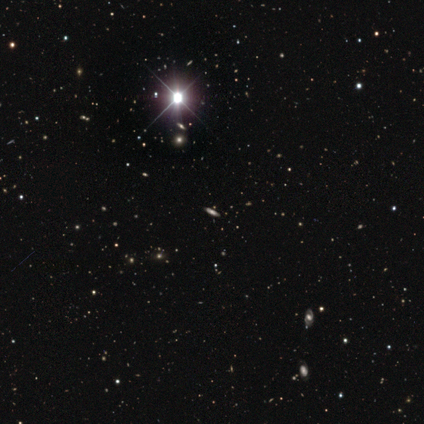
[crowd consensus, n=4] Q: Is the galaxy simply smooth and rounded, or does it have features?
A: smooth — 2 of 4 (50%, tied with star or artifact).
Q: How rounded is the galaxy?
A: cigar-shaped — 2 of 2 (100%).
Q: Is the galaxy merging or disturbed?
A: none — 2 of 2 (100%).